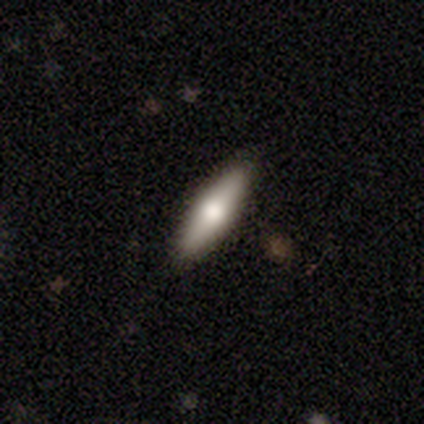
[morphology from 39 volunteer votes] Overall: smooth (64%; featured or disk 33%). How rounded: cigar-shaped (68%; in between 32%). Merging: none (95%).